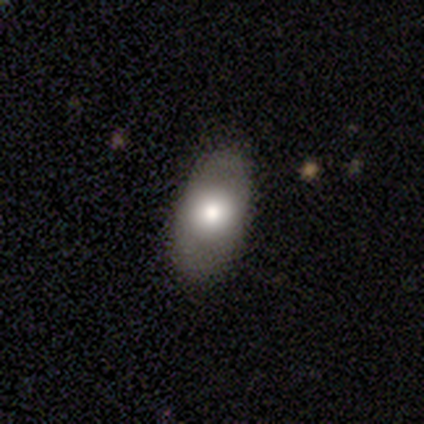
Morphology: type=smooth (80%); roundness=in between (75%); merging=none (100%).